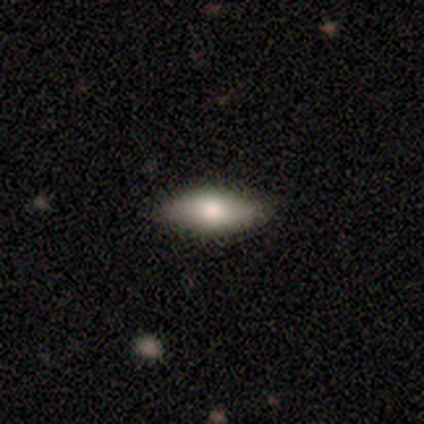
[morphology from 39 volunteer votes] Smooth or featured? 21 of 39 (54%) said smooth. How rounded? 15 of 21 (71%) said in between. Merging? 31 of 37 (84%) said none.